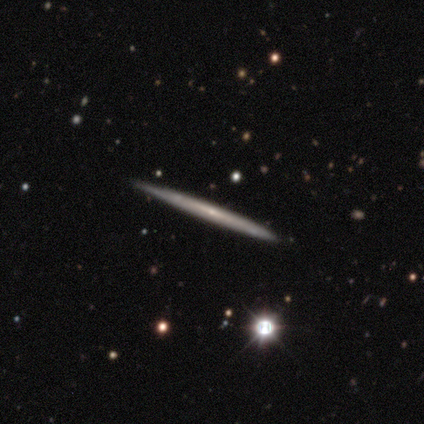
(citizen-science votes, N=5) A featured or disk galaxy (80%) viewed edge-on (75%) with no central bulge (67%). Merging: none (80%).